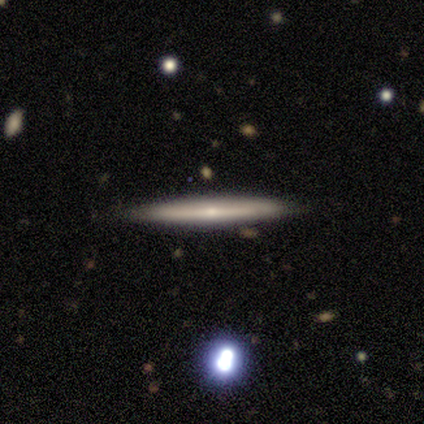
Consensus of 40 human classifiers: A featured or disk galaxy (60%) viewed edge-on (100%) with no central bulge (50%, tied with rounded).

Vote fractions:
- Smooth or featured? featured or disk: 60% / smooth: 32% / star or artifact: 8%
- Edge-on disk? yes: 100% / no: 0%
- Edge-on bulge? none: 50% (tied) / rounded: 50% (tied) / boxy: 0%
- Merging? none: 92% / merger: 5% / minor disturbance: 3% / major disturbance: 0%